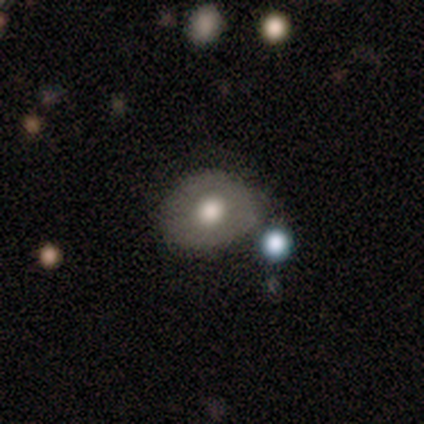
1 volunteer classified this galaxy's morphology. smooth-or-featured: featured or disk: 100% | smooth: 0% | star or artifact: 0%
  disk-edge-on: no: 100% | yes: 0%
    bar: no: 100% | strong: 0% | weak: 0%
    has-spiral-arms: yes: 100% | no: 0%
      spiral-winding: tight: 100% | medium: 0% | loose: 0%
      spiral-arm-count: can't tell: 100% | 1: 0% | 2: 0% | 3: 0% | 4: 0% | more than 4: 0%
    bulge-size: large: 100% | dominant: 0% | moderate: 0% | small: 0% | none: 0%
  merging: minor disturbance: 100% | none: 0% | major disturbance: 0% | merger: 0%